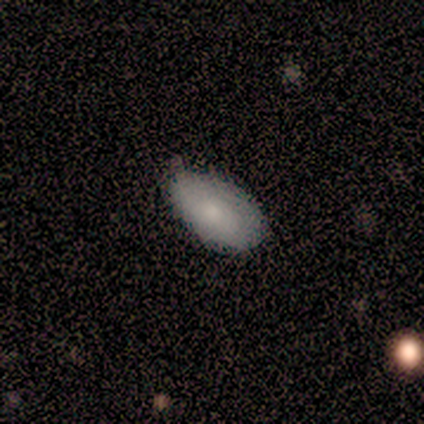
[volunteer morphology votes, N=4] smooth 75%, star or artifact 25%, featured or disk 0%. Down the decision tree: how rounded — in between (100%); merging — none (67%).